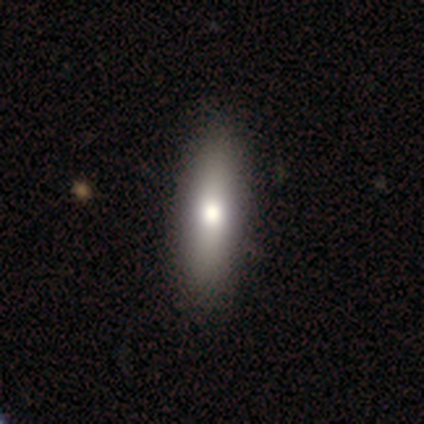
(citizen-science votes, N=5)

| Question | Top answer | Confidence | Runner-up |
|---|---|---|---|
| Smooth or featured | smooth | 60% | featured or disk (40%) |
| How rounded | in between | 67% | cigar-shaped (33%) |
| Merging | none | 100% | — |